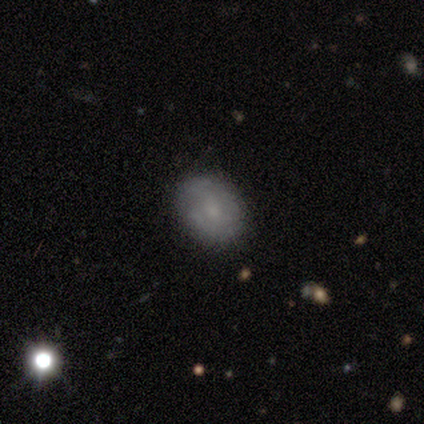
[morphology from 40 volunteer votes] smooth_or_featured: smooth (p=0.65) [alt: featured or disk p=0.23]
how_rounded: in between (p=0.54) [alt: round p=0.42]
merging: none (p=0.94) [alt: minor disturbance p=0.03]